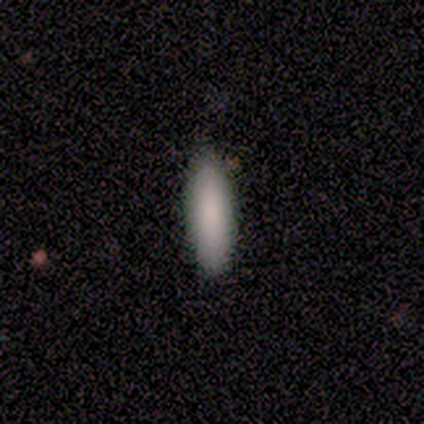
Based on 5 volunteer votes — Overall: smooth (80%). How rounded: in between (75%). Merging: none (80%).